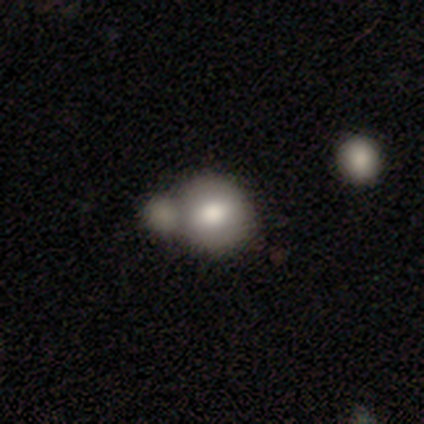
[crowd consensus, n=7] This appears to be a smooth galaxy with no disk features (43%, tied with featured or disk) that is round (100%). Merging: merger (67%).